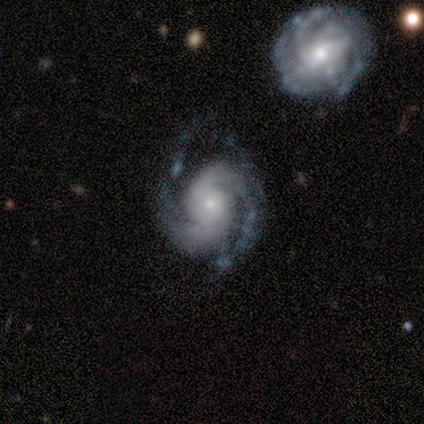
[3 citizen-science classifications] smooth_or_featured: featured or disk (p=1.00)
disk_edge_on: no (p=1.00)
bar: no (p=0.67) [alt: weak p=0.33]
has_spiral_arms: yes (p=1.00)
spiral_winding: medium (p=1.00)
spiral_arm_count: 2 (p=0.67) [alt: can't tell p=0.33]
bulge_size: small (p=0.67) [alt: moderate p=0.33]
merging: none (p=0.67) [alt: minor disturbance p=0.33]